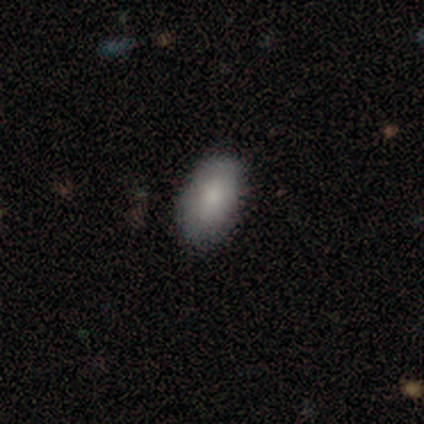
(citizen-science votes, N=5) A smooth galaxy with no disk features (100%) that is in between round and cigar-shaped (100%).

Vote fractions:
- Smooth or featured? smooth: 100% / featured or disk: 0% / star or artifact: 0%
- How rounded? in between: 100% / round: 0% / cigar-shaped: 0%
- Merging? none: 100% / minor disturbance: 0% / major disturbance: 0% / merger: 0%